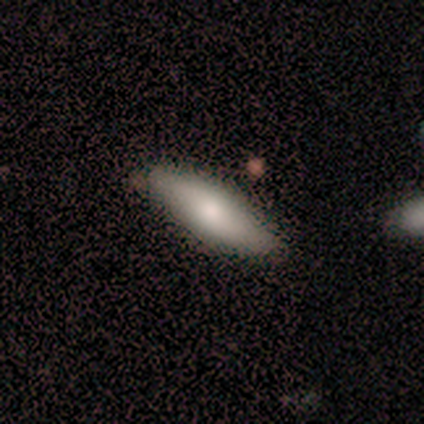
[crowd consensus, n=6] Morphology: type=smooth (50%); roundness=cigar-shaped (67%); merging=none (100%).